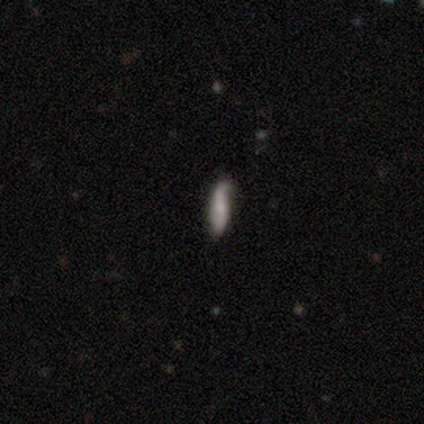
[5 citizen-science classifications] Smooth or featured? 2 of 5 (40%, tied with featured or disk) said smooth. How rounded? 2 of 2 (100%) said cigar-shaped. Merging? 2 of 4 (50%, tied with minor disturbance) said none.